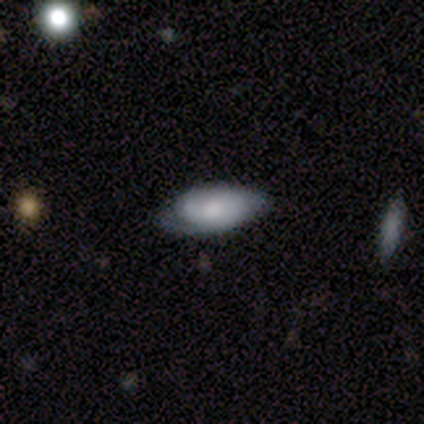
Morphology: type=featured or disk (80%); edge-on=no (75%); bar=no (100%); spiral arms=no (67%); bulge=moderate (67%); merging=none (75%).